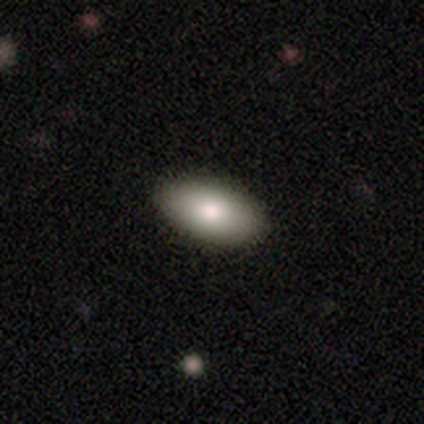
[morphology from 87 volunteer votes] Smooth or featured: smooth — 76% (featured or disk — 17%)
How rounded: in between — 95% (round — 3%)
Merging: none — 90% (minor disturbance — 9%)